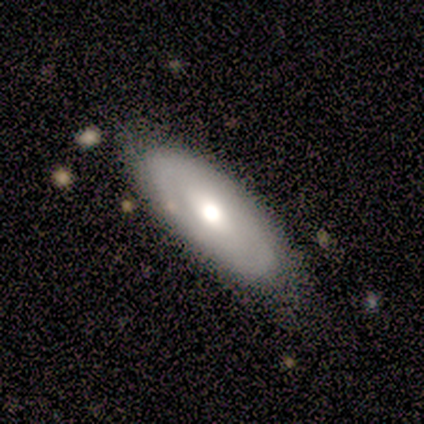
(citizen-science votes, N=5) smooth_or_featured: featured or disk (p=0.80) [alt: smooth p=0.20]
disk_edge_on: no (p=1.00)
bar: no (p=0.75) [alt: weak p=0.25]
has_spiral_arms: yes (p=0.50) [tied with: no p=0.50]
spiral_winding: tight (p=1.00)
spiral_arm_count: 2 (p=0.50) [tied with: can't tell p=0.50]
bulge_size: moderate (p=0.50) [alt: large p=0.25]
merging: none (p=0.80) [alt: minor disturbance p=0.20]